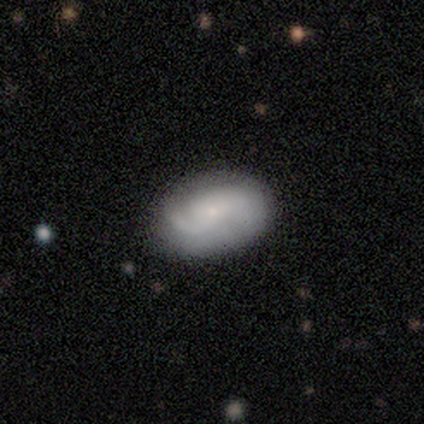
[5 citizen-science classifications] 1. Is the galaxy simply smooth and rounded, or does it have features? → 60% featured or disk, 40% smooth, 0% star or artifact.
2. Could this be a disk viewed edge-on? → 100% no, 0% yes.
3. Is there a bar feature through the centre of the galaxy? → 67% no, 33% weak, 0% strong.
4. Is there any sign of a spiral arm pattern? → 100% yes, 0% no.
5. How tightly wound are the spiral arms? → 67% medium, 33% tight, 0% loose.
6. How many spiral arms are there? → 67% 2, 33% 1, 0% 3, 0% 4, 0% more than 4, 0% can't tell.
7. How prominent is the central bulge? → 100% small, 0% dominant, 0% large, 0% moderate, 0% none.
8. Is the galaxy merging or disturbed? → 100% none, 0% minor disturbance, 0% major disturbance, 0% merger.